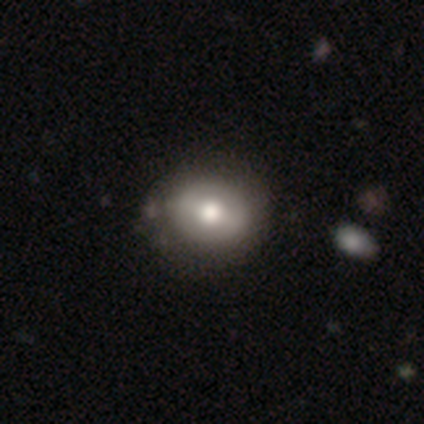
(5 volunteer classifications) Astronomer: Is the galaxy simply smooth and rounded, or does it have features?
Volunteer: smooth — 60% (runner-up: featured or disk, 40%).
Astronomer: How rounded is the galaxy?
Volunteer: round — 100%.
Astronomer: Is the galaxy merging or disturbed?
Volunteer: none — 100%.